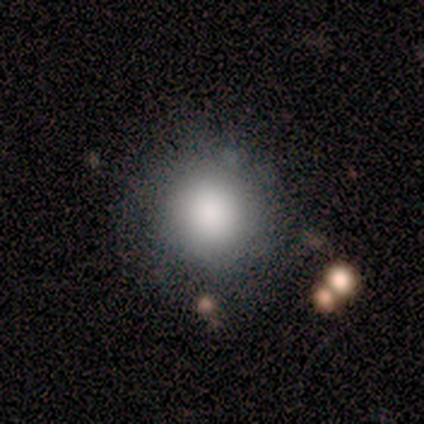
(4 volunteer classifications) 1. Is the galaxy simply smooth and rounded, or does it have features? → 75% smooth, 25% star or artifact, 0% featured or disk.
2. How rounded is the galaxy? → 100% round, 0% in between, 0% cigar-shaped.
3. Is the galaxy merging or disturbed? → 67% none, 33% major disturbance, 0% minor disturbance, 0% merger.